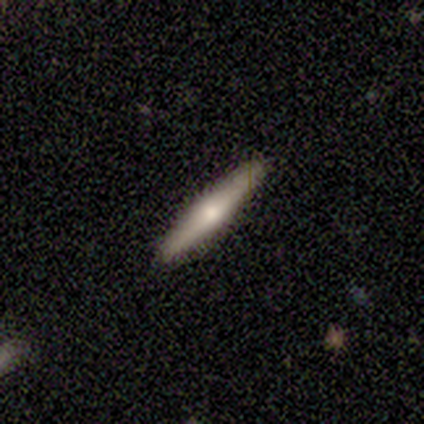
smooth 50% (tied), featured or disk 50% (tied), star or artifact 0%. Down the decision tree: how rounded — cigar-shaped (100%); merging — none (100%).